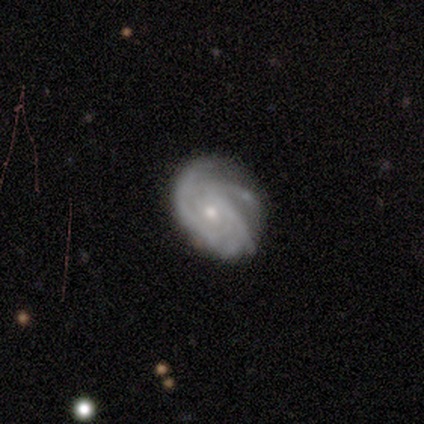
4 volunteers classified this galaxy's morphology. Q: Smooth or featured?
A: featured or disk (75%); runner-up: smooth (25%)
Q: Edge-on disk?
A: no (100%)
Q: Bar?
A: no (100%)
Q: Spiral arms?
A: yes (100%)
Q: Spiral winding?
A: tight (33%); tied with: medium (33%); loose (33%)
Q: Spiral arm count?
A: can't tell (67%); runner-up: 2 (33%)
Q: Bulge size?
A: small (67%); runner-up: moderate (33%)
Q: Merging?
A: none (100%)